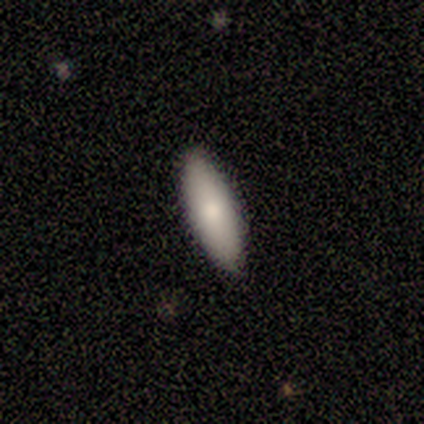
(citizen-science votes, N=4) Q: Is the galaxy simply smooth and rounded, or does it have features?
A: smooth — 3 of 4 (75%).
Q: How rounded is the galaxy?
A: in between — 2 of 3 (67%).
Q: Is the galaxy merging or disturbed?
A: none — 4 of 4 (100%).